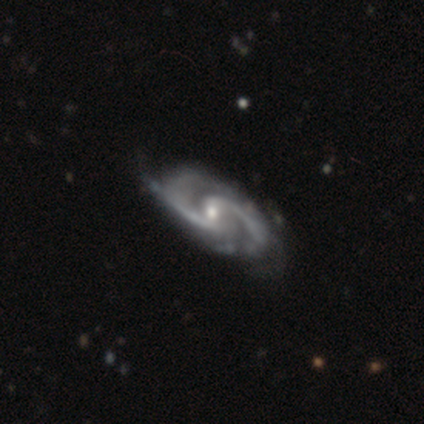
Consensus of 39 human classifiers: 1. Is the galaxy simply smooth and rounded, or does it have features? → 87% featured or disk, 8% star or artifact, 5% smooth.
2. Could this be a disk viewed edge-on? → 100% no, 0% yes.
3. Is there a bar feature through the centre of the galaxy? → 65% weak, 21% no, 15% strong.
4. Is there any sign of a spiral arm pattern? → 97% yes, 3% no.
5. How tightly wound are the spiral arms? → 64% medium, 21% tight, 15% loose.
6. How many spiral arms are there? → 91% 2, 6% 3, 3% 4, 0% 1, 0% more than 4, 0% can't tell.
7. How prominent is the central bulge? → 59% moderate, 35% small, 3% dominant, 3% large, 0% none.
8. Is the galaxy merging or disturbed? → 53% none, 17% minor disturbance, 6% major disturbance, 0% merger.